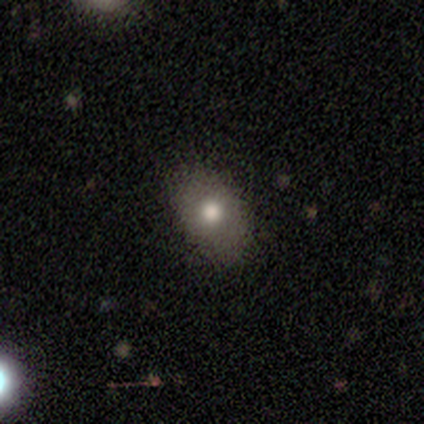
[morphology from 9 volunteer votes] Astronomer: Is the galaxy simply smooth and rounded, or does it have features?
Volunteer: smooth — 56% (runner-up: featured or disk, 33%).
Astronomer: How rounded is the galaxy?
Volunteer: round — 60% (runner-up: in between, 40%).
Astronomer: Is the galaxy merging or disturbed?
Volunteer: none — 88%.